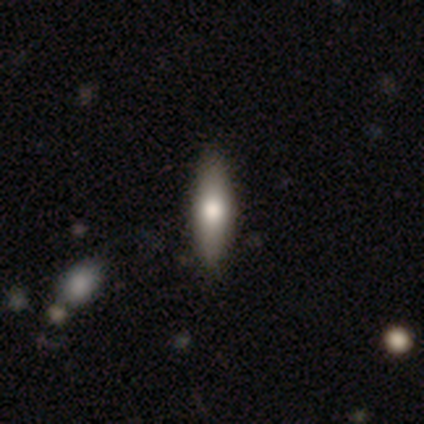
Q: Smooth or featured?
A: smooth (80%); runner-up: featured or disk (20%)
Q: How rounded?
A: cigar-shaped (100%)
Q: Merging?
A: none (100%)